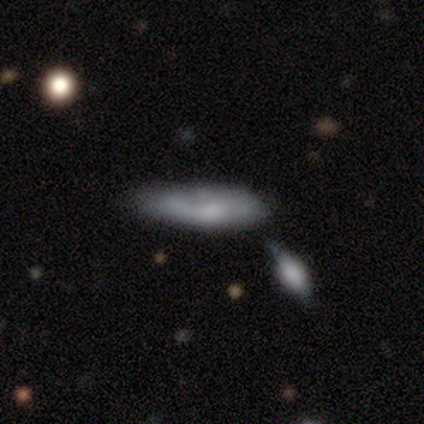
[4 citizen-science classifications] Q: Smooth or featured?
A: smooth (50%); tied with: featured or disk (50%)
Q: How rounded?
A: in between (50%); tied with: cigar-shaped (50%)
Q: Merging?
A: none (50%); runner-up: minor disturbance (25%)